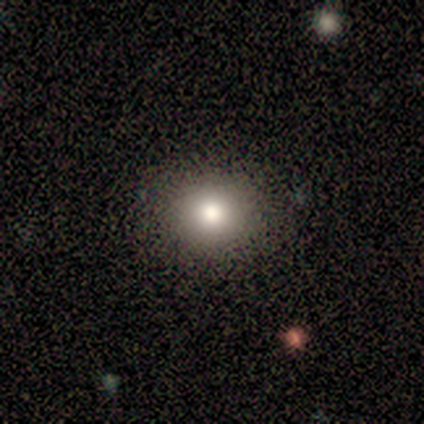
Smooth or featured? 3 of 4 (75%) said smooth. How rounded? 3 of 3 (100%) said round. Merging? 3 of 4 (75%) said none.